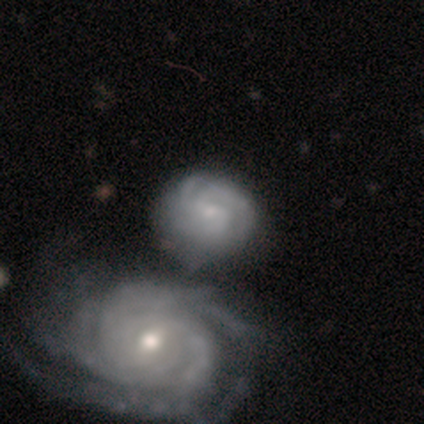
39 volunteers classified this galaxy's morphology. Volunteers were most divided on "spiral arm count": can't tell: 44%, 3: 38%, 2: 9%, 4: 6%, more than 4: 3%, 1: 0%. More confident: spiral arms — yes (97%); edge-on disk — no (94%); smooth or featured — featured or disk (90%); bulge size — small (67%); bar — no (64%); merging — merger (58%); spiral winding — tight (56%).